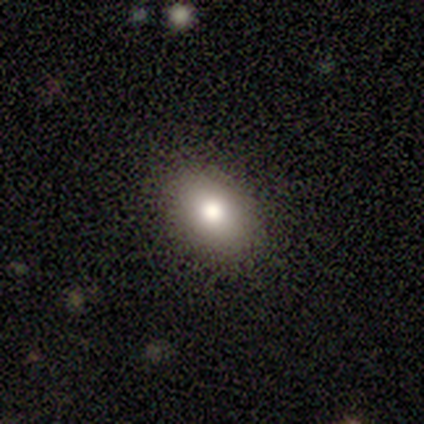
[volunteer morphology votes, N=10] Volunteers were most divided on "smooth or featured": smooth: 60%, star or artifact: 30%, featured or disk: 10%. More confident: merging — none (86%); how rounded — in between (83%).